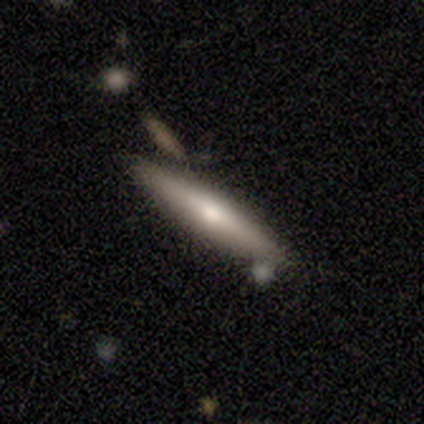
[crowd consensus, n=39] A featured or disk galaxy (64%) viewed edge-on (96%) with a rounded central bulge (88%).

Vote fractions:
- Smooth or featured? featured or disk: 64% / smooth: 31% / star or artifact: 5%
- Edge-on disk? yes: 96% / no: 4%
- Edge-on bulge? rounded: 88% / none: 8% / boxy: 4%
- Merging? none: 73% / merger: 16% / minor disturbance: 11% / major disturbance: 0%